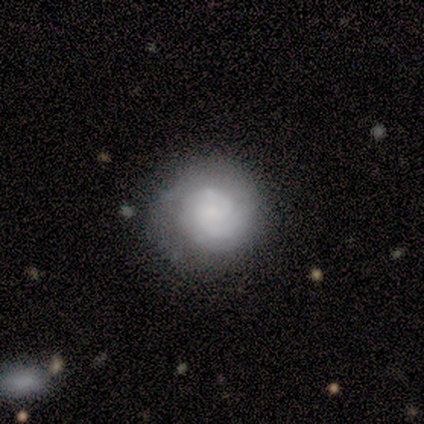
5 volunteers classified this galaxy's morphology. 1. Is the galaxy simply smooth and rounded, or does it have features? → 60% smooth, 40% featured or disk, 0% star or artifact.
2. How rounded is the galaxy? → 100% round, 0% in between, 0% cigar-shaped.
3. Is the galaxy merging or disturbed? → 80% none, 20% minor disturbance, 0% major disturbance, 0% merger.